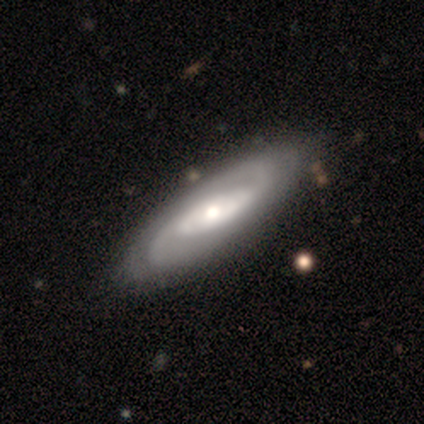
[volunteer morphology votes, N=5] Smooth or featured: featured or disk — 100%
Edge-on disk: no — 100%
Bar: no — 60% (strong — 40%)
Spiral arms: yes — 80% (no — 20%)
Spiral winding: tight — 50% (tied with medium — 50%)
Spiral arm count: 2 — 75% (can't tell — 25%)
Bulge size: large — 60% (moderate — 40%)
Merging: none — 80% (minor disturbance — 20%)